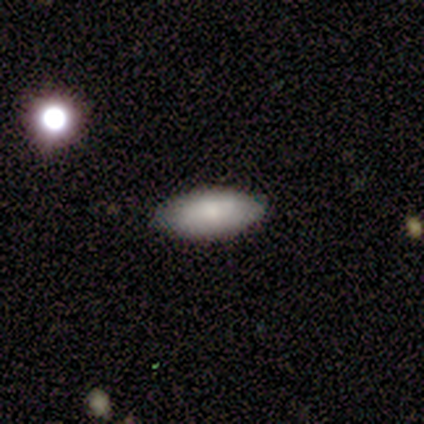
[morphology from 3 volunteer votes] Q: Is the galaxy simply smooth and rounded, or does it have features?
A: smooth — 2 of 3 (67%).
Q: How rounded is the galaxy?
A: in between — 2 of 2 (100%).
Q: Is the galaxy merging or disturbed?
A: none — 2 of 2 (100%).